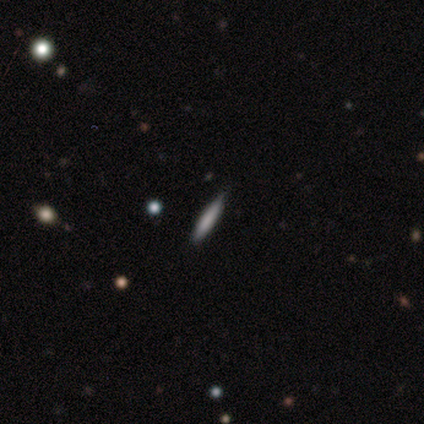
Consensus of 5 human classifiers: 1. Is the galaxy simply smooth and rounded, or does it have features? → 100% smooth, 0% featured or disk, 0% star or artifact.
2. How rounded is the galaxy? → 100% cigar-shaped, 0% round, 0% in between.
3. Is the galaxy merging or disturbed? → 100% none, 0% minor disturbance, 0% major disturbance, 0% merger.